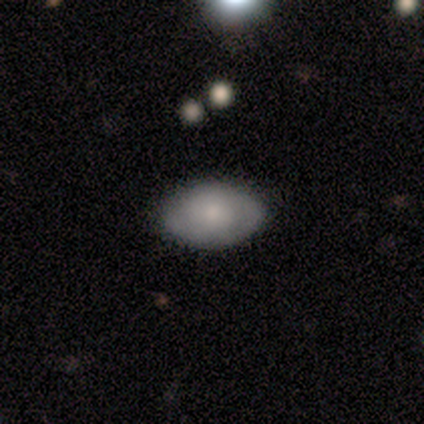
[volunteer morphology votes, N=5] Smooth or featured? 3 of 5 (60%) said smooth. How rounded? 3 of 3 (100%) said in between. Merging? 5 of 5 (100%) said none.